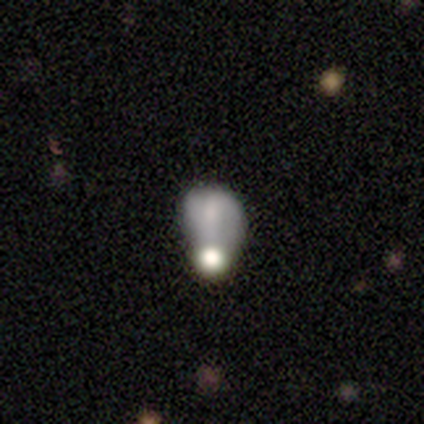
smooth 60%, featured or disk 40%, star or artifact 0%. Down the decision tree: how rounded — in between (100%); merging — minor disturbance (40%, tied with merger).